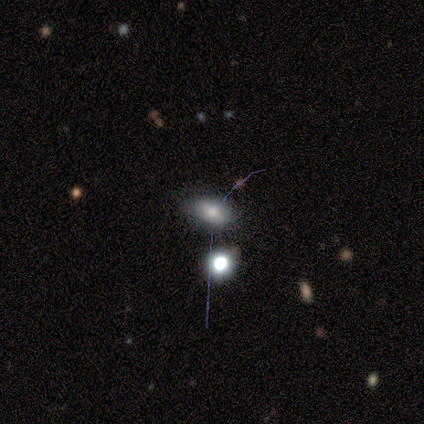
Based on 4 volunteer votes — Smooth or featured: smooth — 75% (star or artifact — 25%)
How rounded: in between — 67% (round — 33%)
Merging: none — 100%